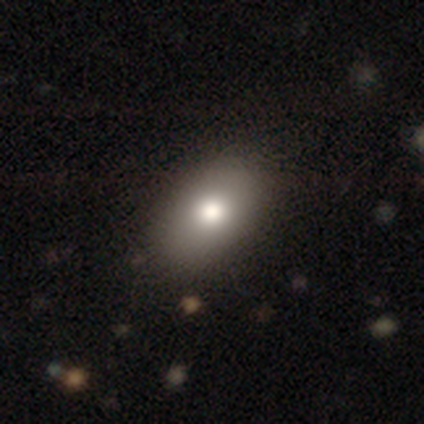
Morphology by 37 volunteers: smooth 70%, featured or disk 16%, star or artifact 14%. Down the decision tree: how rounded — in between (92%); merging — none (78%).